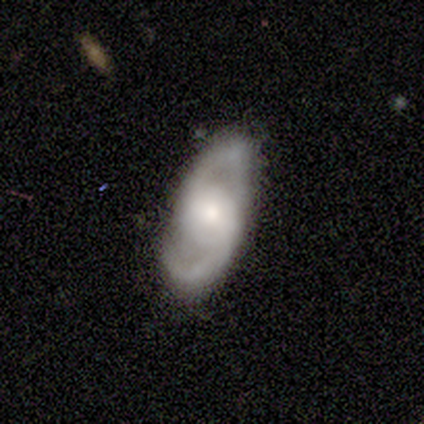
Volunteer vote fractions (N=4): Smooth or featured? 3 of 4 (75%) said featured or disk. Edge-on disk? 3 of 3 (100%) said no. Bar? 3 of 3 (100%) said no. Spiral arms? 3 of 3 (100%) said yes. Spiral winding? 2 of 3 (67%) said loose. Spiral arm count? 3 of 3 (100%) said 2. Bulge size? 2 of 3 (67%) said moderate. Merging? 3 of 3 (100%) said none.